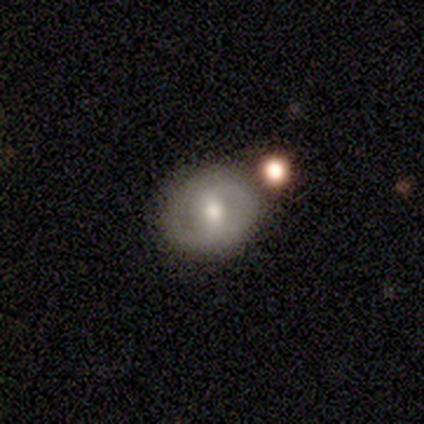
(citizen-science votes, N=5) Smooth or featured? 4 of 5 (80%) said smooth. How rounded? 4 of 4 (100%) said round. Merging? 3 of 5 (60%) said none.